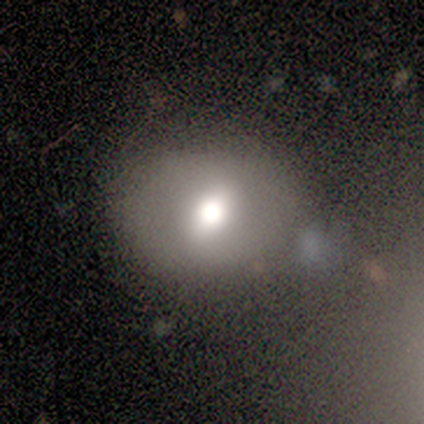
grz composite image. It shows a smooth galaxy with no disk features (67%) that is round (50%, tied with in between). Merging: none (80%).